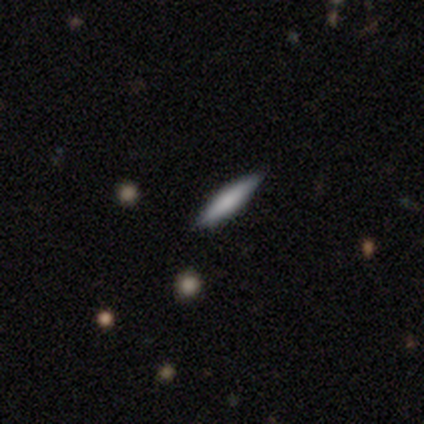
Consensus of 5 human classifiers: Morphology: type=smooth (60%); roundness=cigar-shaped (67%); merging=none (100%).